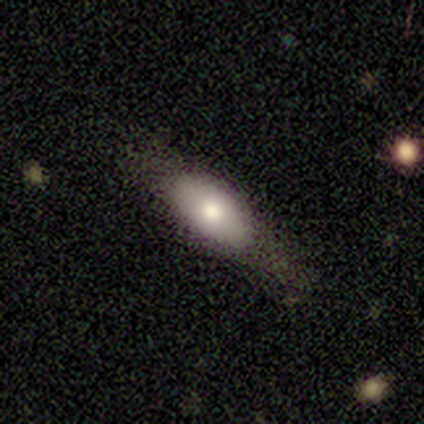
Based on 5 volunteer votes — Smooth or featured?
  - smooth: 60% *
  - featured or disk: 40%
  - star or artifact: 0%
How rounded?
  - in between: 67% *
  - cigar-shaped: 33%
  - round: 0%
Merging?
  - none: 100% *
  - minor disturbance: 0%
  - major disturbance: 0%
  - merger: 0%